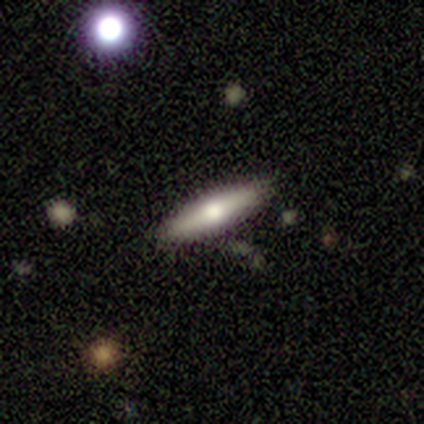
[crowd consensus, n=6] A smooth galaxy with no disk features (67%) that is cigar-shaped (75%).

Vote fractions:
- Smooth or featured? smooth: 67% / featured or disk: 33% / star or artifact: 0%
- How rounded? cigar-shaped: 75% / in between: 25% / round: 0%
- Merging? none: 100% / minor disturbance: 0% / major disturbance: 0% / merger: 0%